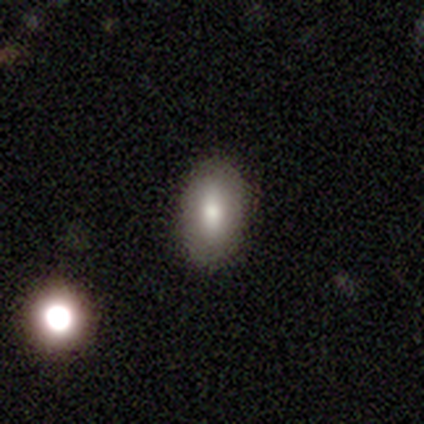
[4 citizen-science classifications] Morphology: type=smooth (100%); roundness=in between (100%); merging=none (100%).